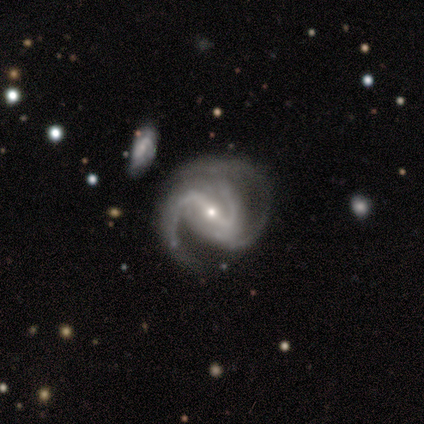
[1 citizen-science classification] Consensus on every question: smooth or featured — featured or disk (100%); edge-on disk — no (100%); bar — strong (100%); spiral arms — yes (100%); spiral winding — medium (100%); spiral arm count — 3 (100%); bulge size — small (100%); merging — none (100%).